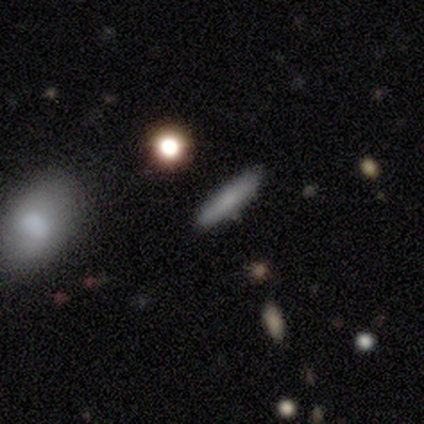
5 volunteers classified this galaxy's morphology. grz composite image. It shows a smooth galaxy with no disk features (40%, tied with star or artifact) that is cigar-shaped (100%). Merging: none (67%).